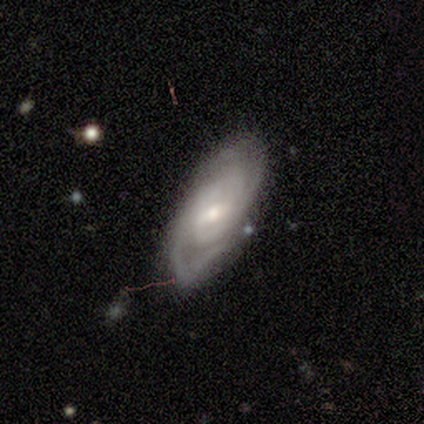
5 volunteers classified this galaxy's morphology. A featured or disk galaxy (60%) with a weak bar (100%), 2 (67%) tight (67%) spiral arms (100%) and a moderate central bulge (100%). Merging: minor disturbance (75%).